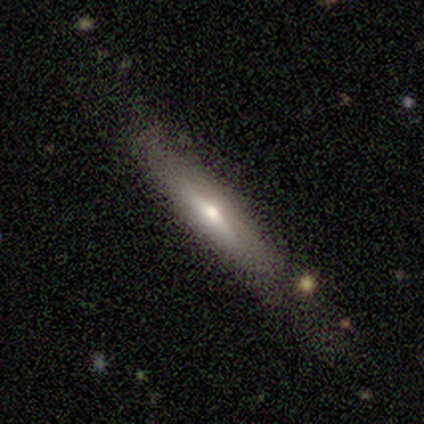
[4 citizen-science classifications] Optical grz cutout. It shows a smooth galaxy with no disk features (50%, tied with featured or disk) that is cigar-shaped (100%). Merging: none (100%).